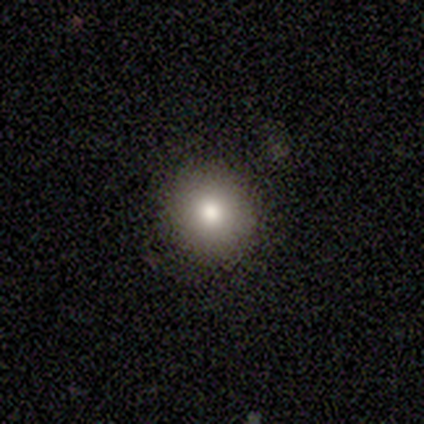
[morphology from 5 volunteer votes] This appears to be a smooth galaxy with no disk features (80%) that is round (50%, tied with in between). Merging: minor disturbance (75%).